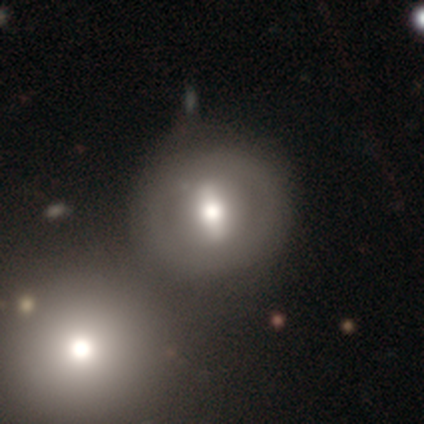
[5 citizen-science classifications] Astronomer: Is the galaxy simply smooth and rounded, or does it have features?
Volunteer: smooth — 60% (runner-up: featured or disk, 40%).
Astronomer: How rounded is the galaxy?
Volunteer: round — 100%.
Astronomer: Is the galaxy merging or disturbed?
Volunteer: none — 40%, tied with merger at 40%.